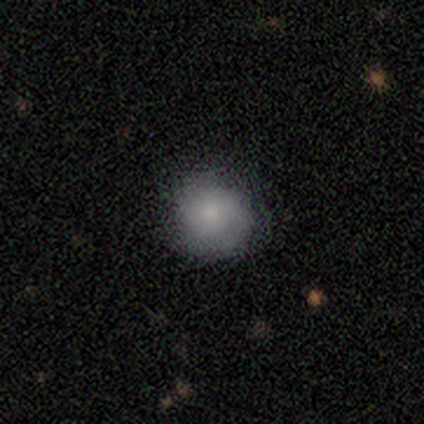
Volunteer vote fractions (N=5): This is clearly a smooth galaxy (100%). How rounded: clearly round (100%). Merging: clearly none (100%).